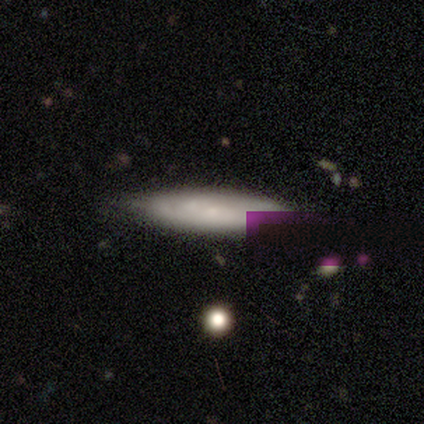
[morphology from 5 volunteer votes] Smooth or featured: smooth — 60% (featured or disk — 40%)
How rounded: cigar-shaped — 67% (in between — 33%)
Merging: none — 80% (minor disturbance — 20%)